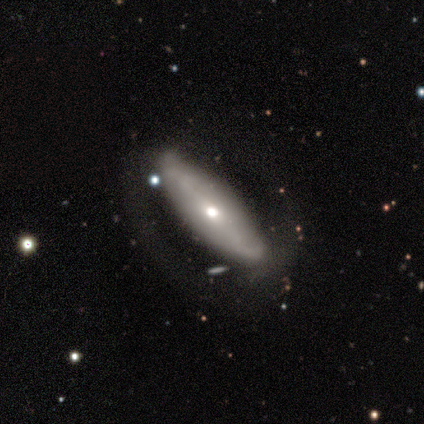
smooth_or_featured: featured or disk (p=1.00)
disk_edge_on: no (p=0.80) [alt: yes p=0.20]
bar: no (p=0.75) [alt: strong p=0.25]
has_spiral_arms: no (p=0.75) [alt: yes p=0.25]
bulge_size: moderate (p=0.75) [alt: small p=0.25]
merging: none (p=0.80) [alt: major disturbance p=0.20]